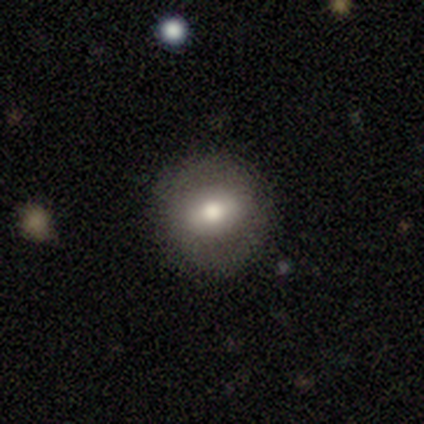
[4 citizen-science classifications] smooth-or-featured: smooth: 50% (tied) | featured or disk: 50% (tied) | star or artifact: 0%
  how-rounded: round: 100% | in between: 0% | cigar-shaped: 0%
  merging: none: 75% | minor disturbance: 25% | major disturbance: 0% | merger: 0%